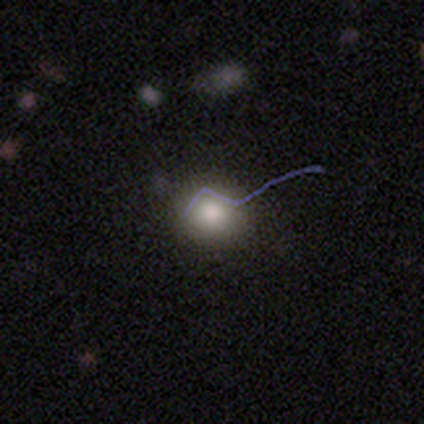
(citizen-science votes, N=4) Smooth or featured? 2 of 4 (50%, tied with star or artifact) said smooth. How rounded? 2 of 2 (100%) said round. Merging? 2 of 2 (100%) said none.